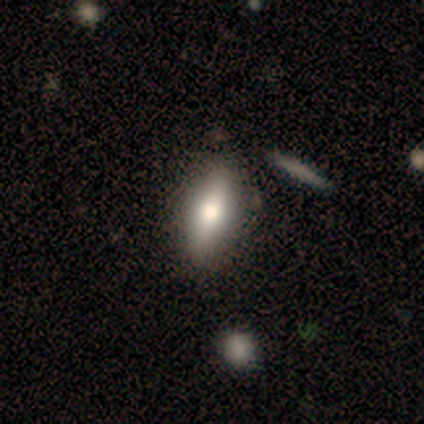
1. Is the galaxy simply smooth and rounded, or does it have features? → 60% smooth, 20% featured or disk, 20% star or artifact.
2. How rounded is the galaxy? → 100% in between, 0% round, 0% cigar-shaped.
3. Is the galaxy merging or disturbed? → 50% none (tied), 50% minor disturbance (tied), 0% major disturbance, 0% merger.